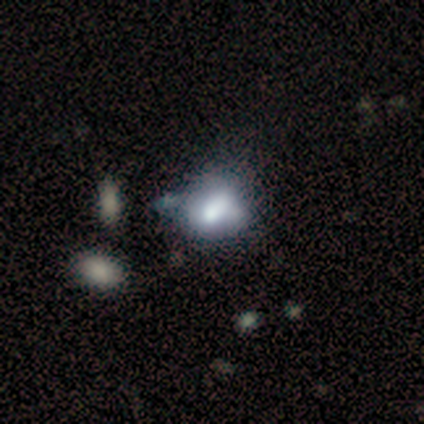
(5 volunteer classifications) This appears to be a smooth galaxy with no disk features (60%) that is in between round and cigar-shaped (67%). Merging: merger (50%).